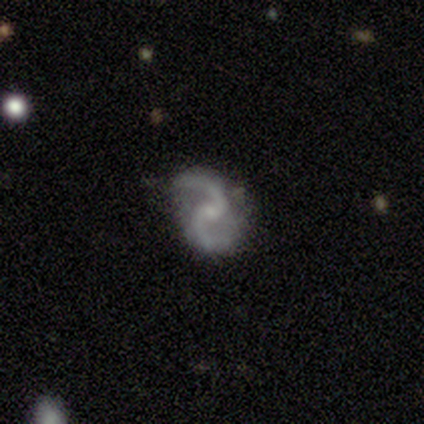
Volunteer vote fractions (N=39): A featured or disk galaxy (85%) with no bar (61%), 2 (97%) loose (68%) spiral arms (94%) and a small central bulge (76%).

Vote fractions:
- Smooth or featured? featured or disk: 85% / star or artifact: 15% / smooth: 0%
- Edge-on disk? no: 100% / yes: 0%
- Bar? no: 61% / weak: 24% / strong: 15%
- Spiral arms? yes: 94% / no: 6%
- Spiral winding? loose: 68% / medium: 23% / tight: 10%
- Spiral arm count? 2: 97% / 1: 3% / 3: 0% / 4: 0% / more than 4: 0% / can't tell: 0%
- Bulge size? small: 76% / none: 15% / moderate: 9% / dominant: 0% / large: 0%
- Merging? none: 82% / minor disturbance: 18% / major disturbance: 0% / merger: 0%